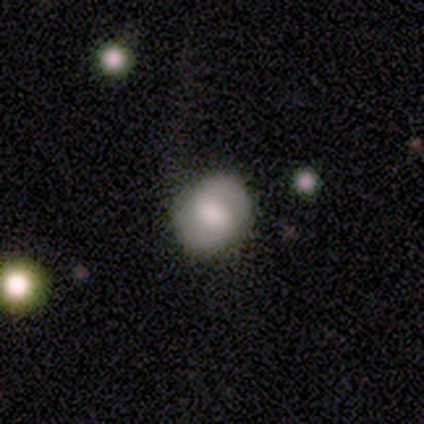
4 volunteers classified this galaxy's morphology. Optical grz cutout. It shows a smooth galaxy with no disk features (75%) that is round (100%). Merging: none (75%).